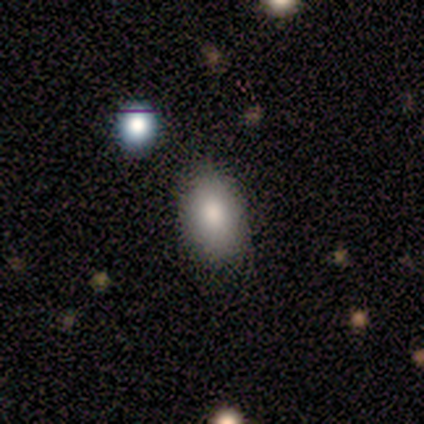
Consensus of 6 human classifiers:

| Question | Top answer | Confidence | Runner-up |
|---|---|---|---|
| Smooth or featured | smooth | 100% | — |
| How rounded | in between | 100% | — |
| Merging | none | 100% | — |